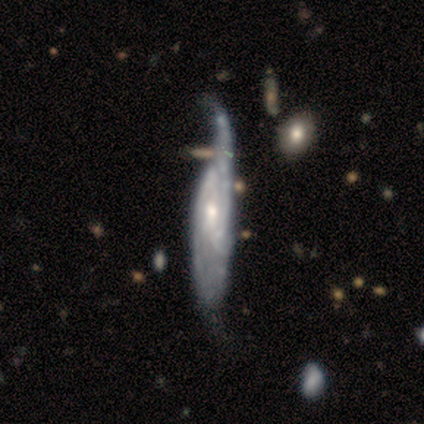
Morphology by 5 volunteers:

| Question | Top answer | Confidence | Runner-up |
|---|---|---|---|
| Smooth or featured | featured or disk | 80% | smooth (20%) |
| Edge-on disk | no | 75% | yes (25%) |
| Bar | no | 100% | — |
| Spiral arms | yes | 100% | — |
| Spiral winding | tight | 67% | medium (33%) |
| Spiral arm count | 2 | 33% | tied: 4 (33%), can't tell (33%) |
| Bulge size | moderate | 67% | small (33%) |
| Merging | major disturbance | 40% | tied: merger (40%) |